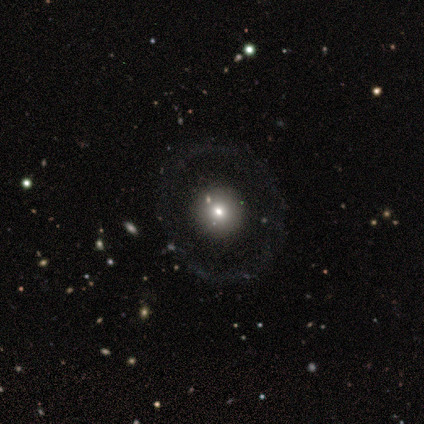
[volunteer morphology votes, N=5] A smooth galaxy with no disk features (80%) that is round (100%). Merging: none (100%).